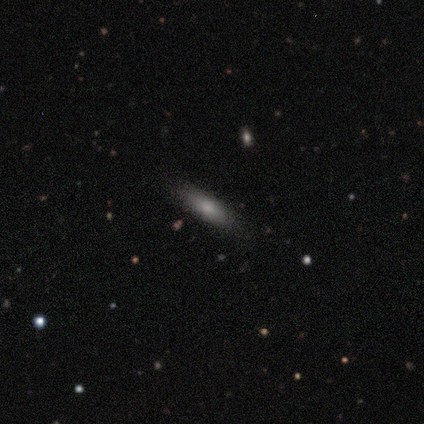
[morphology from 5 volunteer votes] smooth_or_featured: smooth (p=1.00)
how_rounded: in between (p=0.60) [alt: round p=0.20]
merging: none (p=1.00)